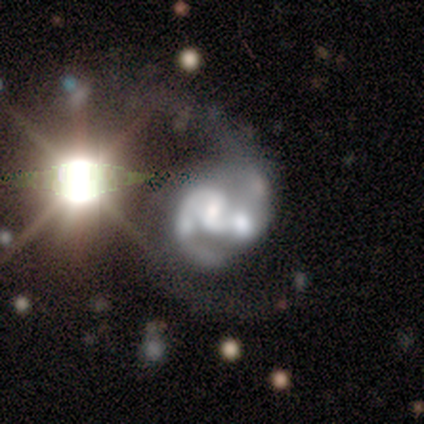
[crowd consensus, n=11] Morphology: type=featured or disk (91%); edge-on=no (100%); bar=weak (60%); spiral arms=yes (100%); winding=medium (50%); arm count=2 (80%); bulge=moderate (40%, tied with none); merging=merger (40%).